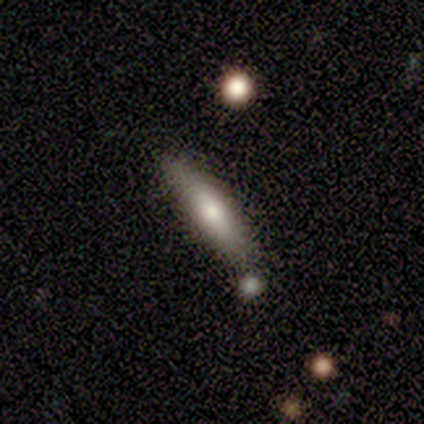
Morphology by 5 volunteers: type=smooth (60%); roundness=cigar-shaped (67%); merging=none (80%).